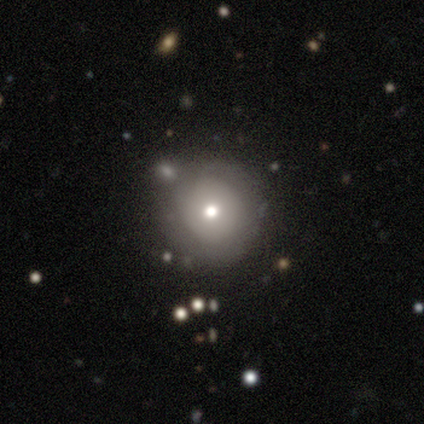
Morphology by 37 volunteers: smooth 65%, featured or disk 30%, star or artifact 5%. Down the decision tree: how rounded — round (96%); merging — none (66%).